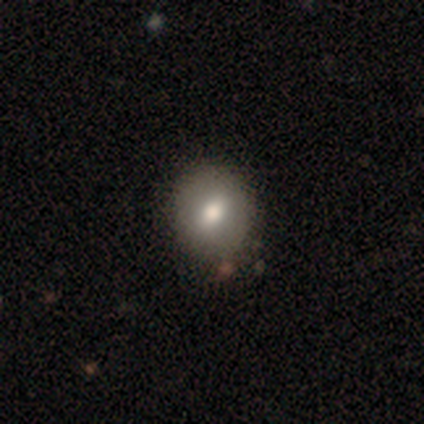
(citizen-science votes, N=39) A smooth galaxy with no disk features (72%) that is round (71%).

Vote fractions:
- Smooth or featured? smooth: 72% / featured or disk: 21% / star or artifact: 8%
- How rounded? round: 71% / in between: 29% / cigar-shaped: 0%
- Merging? none: 56% / minor disturbance: 8% / major disturbance: 3% / merger: 3%